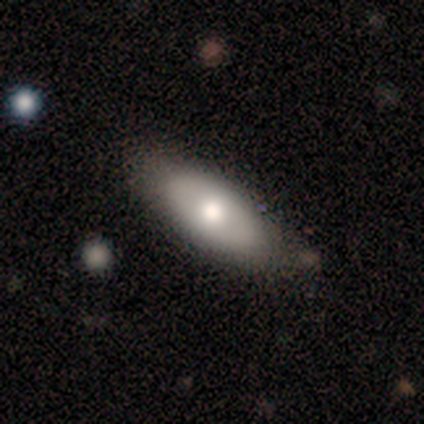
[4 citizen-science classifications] This appears to be a smooth galaxy with no disk features (50%, tied with featured or disk) that is in between round and cigar-shaped (100%). Merging: none (100%).